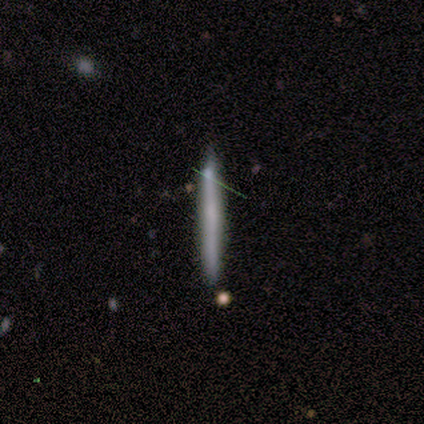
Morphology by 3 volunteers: A smooth galaxy with no disk features (67%) that is cigar-shaped (100%). Merging: none (100%).